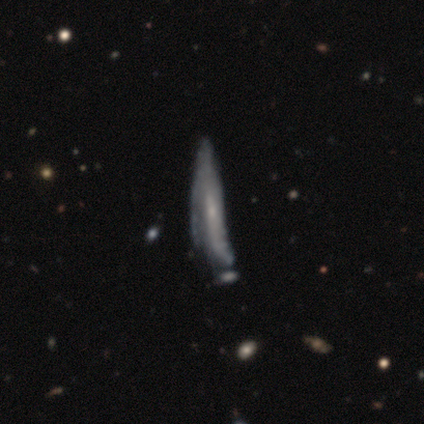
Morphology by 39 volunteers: type=featured or disk (64%); edge-on=no (64%); bar=no (69%); spiral arms=yes (62%); winding=tight (50%); arm count=can't tell (50%); bulge=small (75%); merging=major disturbance (27%).